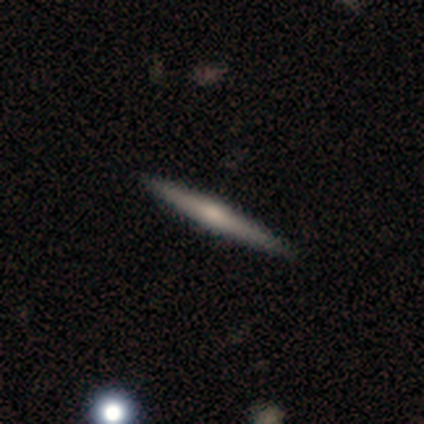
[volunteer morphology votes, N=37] Q: Smooth or featured?
A: featured or disk (57%); runner-up: smooth (38%)
Q: Edge-on disk?
A: yes (100%)
Q: Edge-on bulge?
A: rounded (52%); runner-up: none (43%)
Q: Merging?
A: none (94%); runner-up: minor disturbance (3%)